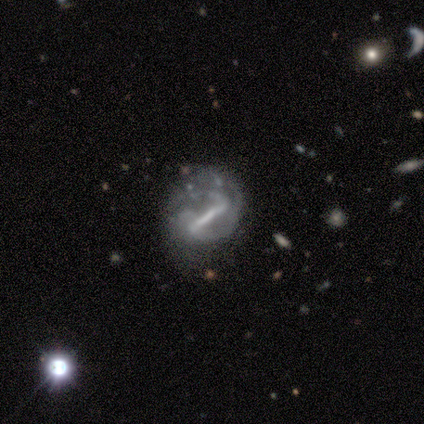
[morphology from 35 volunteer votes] Overall: featured or disk (91%). Edge-on disk: no (94%). Bar: strong (90%). Spiral arms: yes (87%). Spiral arm count: 2 (38%, tied with can't tell). Spiral winding: tight (38%, tied with medium). Bulge size: none (50%; moderate 23%). Merging: major disturbance (35%; minor disturbance 32%).